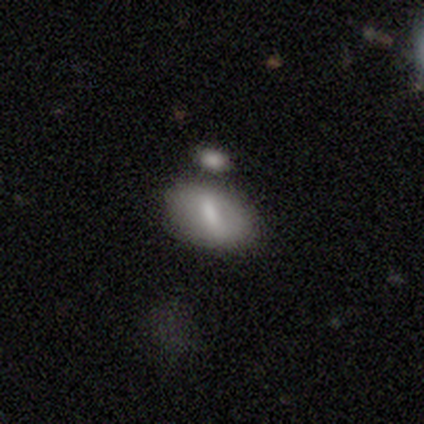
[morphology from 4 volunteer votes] Volunteers were most divided on "smooth or featured" (2-way tie): smooth: 50%, featured or disk: 50%, star or artifact: 0%. More confident: how rounded — in between (100%); merging — none (50%).